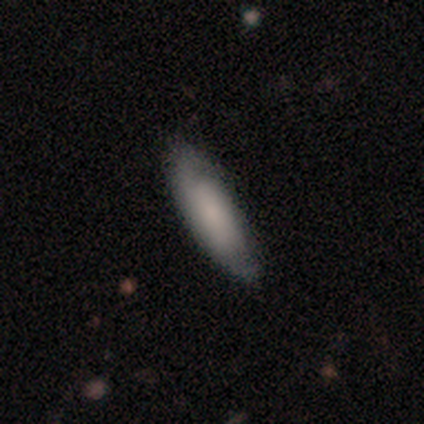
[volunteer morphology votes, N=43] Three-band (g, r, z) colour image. It shows a smooth galaxy with no disk features (67%) that is in between round and cigar-shaped (52%). Merging: none (68%).